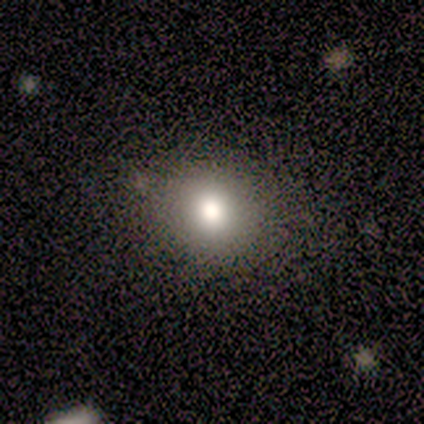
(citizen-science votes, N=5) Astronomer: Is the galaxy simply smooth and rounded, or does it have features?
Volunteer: smooth — 60%.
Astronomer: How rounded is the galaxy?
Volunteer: round — 67%.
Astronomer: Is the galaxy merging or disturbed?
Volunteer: none — 100%.